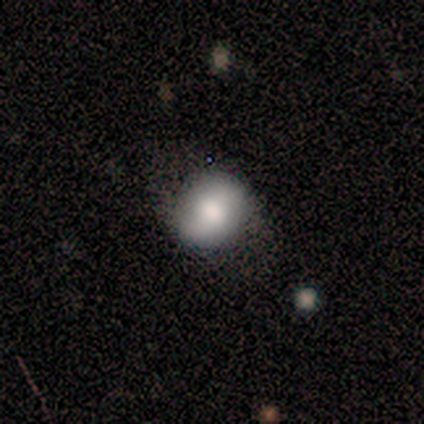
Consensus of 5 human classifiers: Overall: featured or disk (80%). Edge-on disk: no (100%). Bar: weak (50%, tied with no). Spiral arms: yes (75%). Spiral arm count: 2 (67%; can't tell 33%). Spiral winding: medium (67%; loose 33%). Bulge size: large (100%). Merging: none (80%).